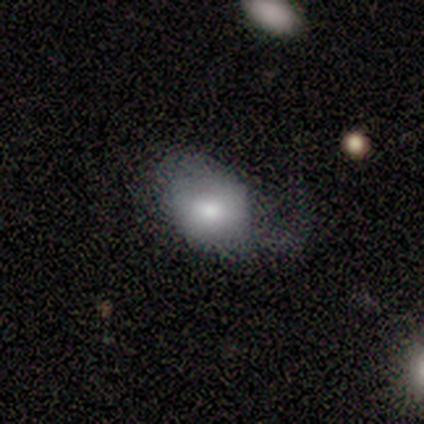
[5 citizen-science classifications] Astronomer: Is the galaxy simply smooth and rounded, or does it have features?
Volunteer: smooth — 60% (runner-up: featured or disk, 40%).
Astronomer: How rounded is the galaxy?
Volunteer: in between — 100%.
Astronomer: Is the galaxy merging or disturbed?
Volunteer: major disturbance — 60%.